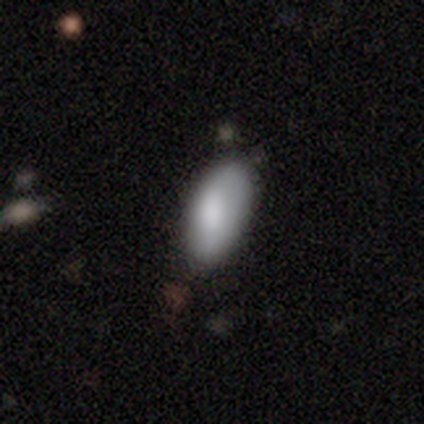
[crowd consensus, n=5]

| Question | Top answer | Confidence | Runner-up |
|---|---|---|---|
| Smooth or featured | smooth | 80% | featured or disk (20%) |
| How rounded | in between | 75% | cigar-shaped (25%) |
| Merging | none | 60% | minor disturbance (40%) |